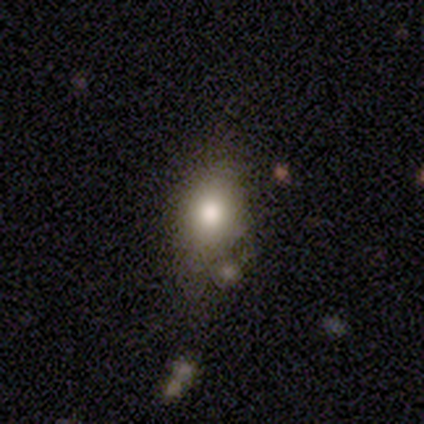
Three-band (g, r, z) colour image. It shows a smooth galaxy with no disk features (69%) that is in between round and cigar-shaped (68%). Merging: none (56%).